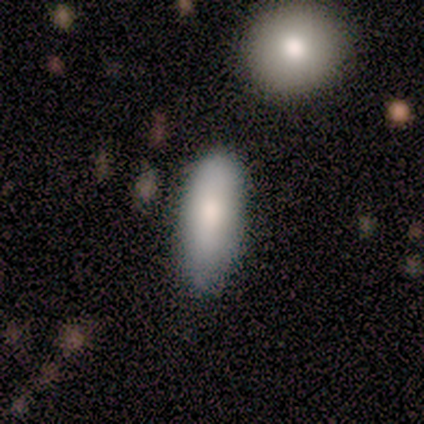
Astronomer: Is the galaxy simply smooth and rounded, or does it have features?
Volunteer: smooth — 75%.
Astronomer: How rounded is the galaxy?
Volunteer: in between — 67%.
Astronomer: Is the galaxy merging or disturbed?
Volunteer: none — 75%.